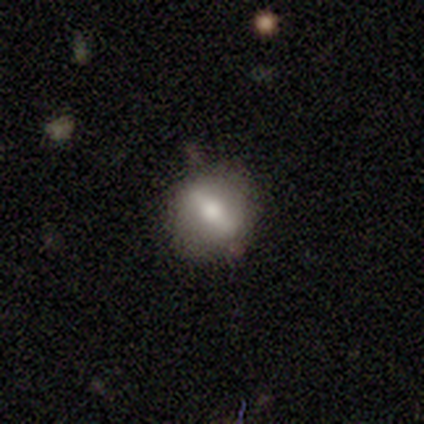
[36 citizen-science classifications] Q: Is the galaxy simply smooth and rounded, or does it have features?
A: featured or disk — 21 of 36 (58%).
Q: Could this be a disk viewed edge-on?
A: no — 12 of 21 (57%).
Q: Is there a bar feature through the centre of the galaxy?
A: strong — 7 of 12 (58%).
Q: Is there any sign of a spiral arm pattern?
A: no — 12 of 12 (100%).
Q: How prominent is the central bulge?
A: moderate — 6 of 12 (50%).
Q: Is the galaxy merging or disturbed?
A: none — 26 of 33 (79%).